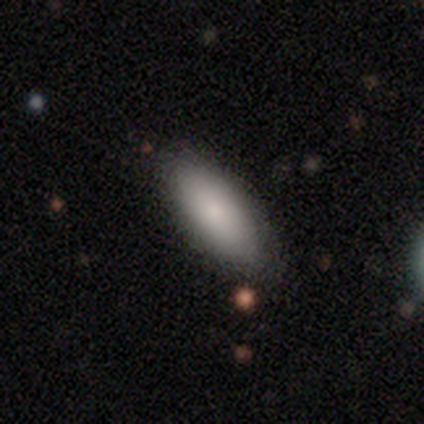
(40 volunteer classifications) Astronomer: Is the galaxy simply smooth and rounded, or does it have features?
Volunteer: smooth — 92%.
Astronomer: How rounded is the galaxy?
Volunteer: in between — 81%.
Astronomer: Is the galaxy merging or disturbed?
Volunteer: none — 82%.